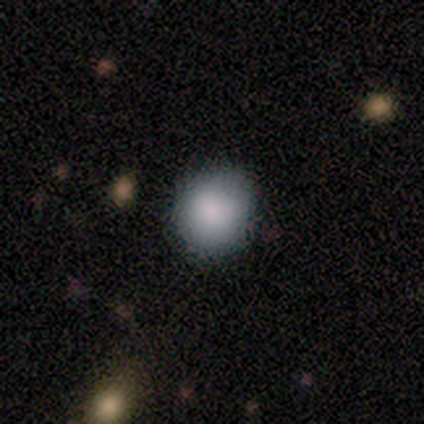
smooth 60%, star or artifact 40%, featured or disk 0%. Down the decision tree: how rounded — round (100%); merging — none (67%).